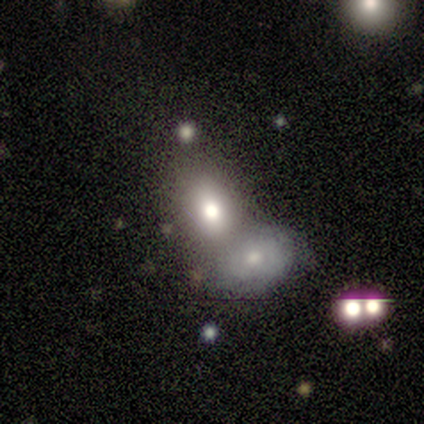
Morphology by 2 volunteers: Smooth or featured? 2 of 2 (100%) said smooth. How rounded? 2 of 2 (100%) said in between. Merging? 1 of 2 (50%, tied with merger) said none.